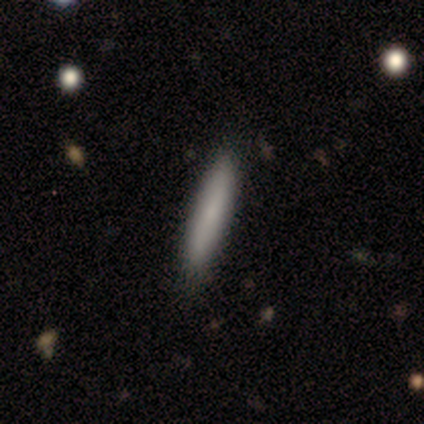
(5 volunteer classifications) Overall: smooth (80%). How rounded: cigar-shaped (100%). Merging: none (100%).